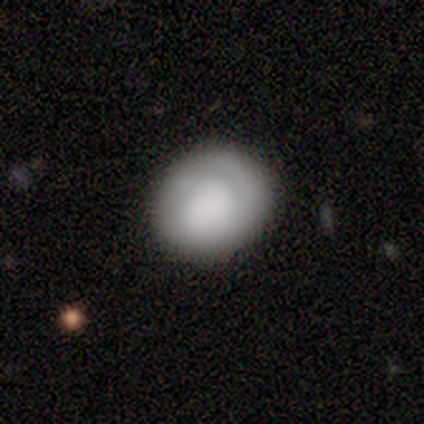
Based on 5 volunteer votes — This is likely a smooth galaxy (60%). How rounded: likely round (67%). Merging: likely none (75%).